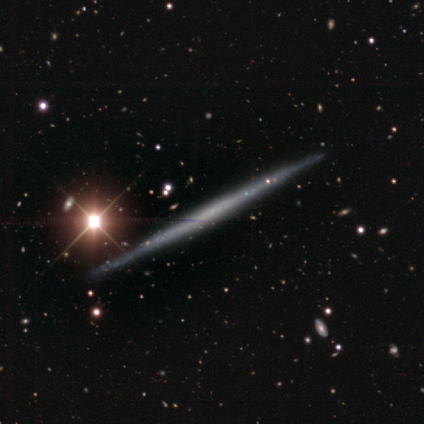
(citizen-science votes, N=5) A featured or disk galaxy (60%) viewed edge-on (100%) with no central bulge (100%). Merging: none (80%).